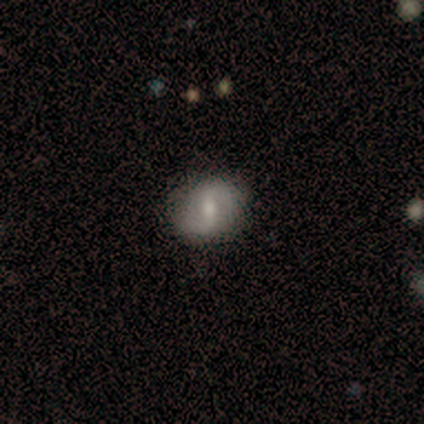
Morphology: type=featured or disk (80%); edge-on=no (100%); bar=weak (75%); spiral arms=yes (75%); winding=medium (67%); arm count=2 (100%); bulge=small (75%); merging=none (80%).